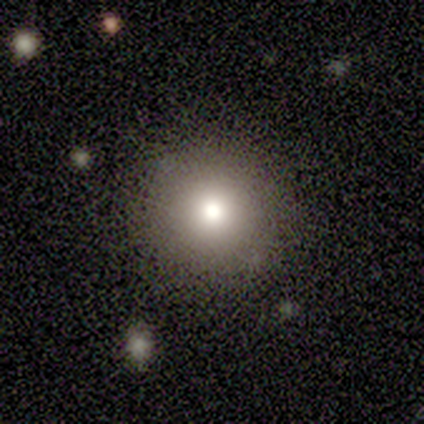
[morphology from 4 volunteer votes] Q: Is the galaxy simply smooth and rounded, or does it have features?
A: smooth — 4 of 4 (100%).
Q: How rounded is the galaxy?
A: round — 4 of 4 (100%).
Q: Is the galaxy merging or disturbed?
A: none — 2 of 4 (50%, tied with major disturbance).